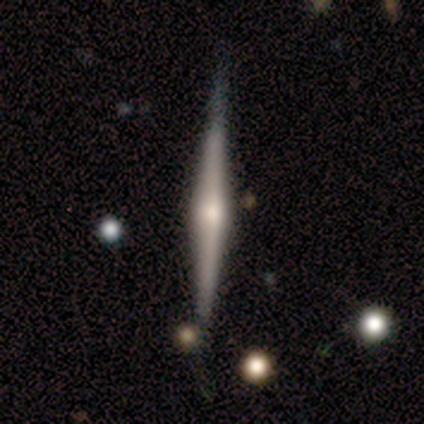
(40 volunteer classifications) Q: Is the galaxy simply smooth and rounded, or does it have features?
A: featured or disk — 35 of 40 (88%).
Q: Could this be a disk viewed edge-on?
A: yes — 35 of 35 (100%).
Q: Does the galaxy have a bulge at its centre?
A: rounded — 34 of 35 (97%).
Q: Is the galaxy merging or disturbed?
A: none — 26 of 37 (70%).